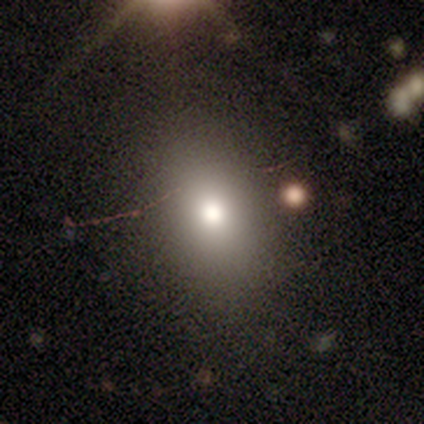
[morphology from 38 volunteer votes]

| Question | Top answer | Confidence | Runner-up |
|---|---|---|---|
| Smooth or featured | smooth | 79% | featured or disk (11%) |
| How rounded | in between | 57% | round (37%) |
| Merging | none | 82% | minor disturbance (15%) |